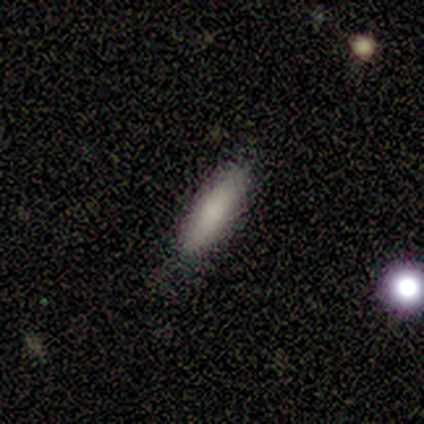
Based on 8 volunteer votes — Smooth or featured? 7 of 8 (88%) said smooth. How rounded? 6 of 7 (86%) said cigar-shaped. Merging? 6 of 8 (75%) said none.